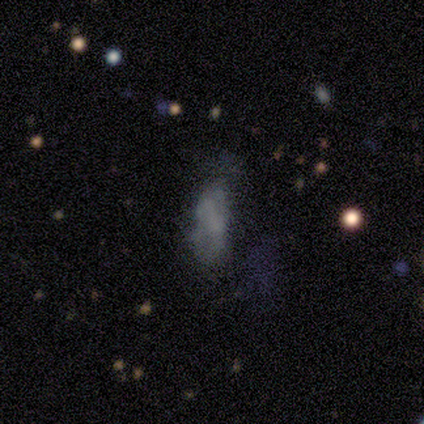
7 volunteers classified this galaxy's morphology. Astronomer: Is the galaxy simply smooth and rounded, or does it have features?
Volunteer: featured or disk — 43% (runner-up: smooth, 29%).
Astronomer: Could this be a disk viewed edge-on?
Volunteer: no — 100%.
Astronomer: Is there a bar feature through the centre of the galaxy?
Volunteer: strong — 33%, tied with weak and no at 33%.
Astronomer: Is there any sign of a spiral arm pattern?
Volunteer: no — 100%.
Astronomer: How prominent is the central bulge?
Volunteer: none — 67%.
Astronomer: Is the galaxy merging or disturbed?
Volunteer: none — 40%, tied with minor disturbance at 40%.